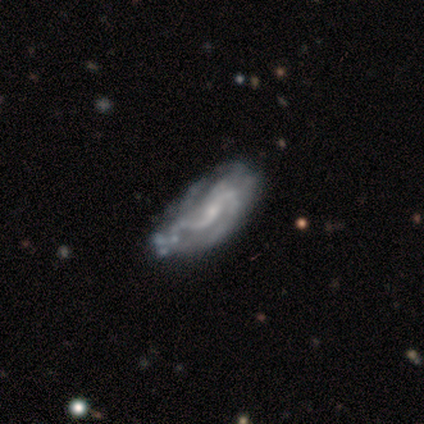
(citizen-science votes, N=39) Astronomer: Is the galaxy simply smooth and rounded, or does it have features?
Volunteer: featured or disk — 90%.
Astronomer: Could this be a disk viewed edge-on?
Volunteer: no — 97%.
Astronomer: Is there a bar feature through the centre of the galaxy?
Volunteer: no — 50% (runner-up: weak, 35%).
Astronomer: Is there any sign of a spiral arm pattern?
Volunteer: yes — 76%.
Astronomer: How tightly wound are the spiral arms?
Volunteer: medium — 46% (runner-up: loose, 38%).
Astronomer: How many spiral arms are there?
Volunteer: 2 — 46% (runner-up: can't tell, 31%).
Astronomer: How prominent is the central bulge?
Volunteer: small — 56%.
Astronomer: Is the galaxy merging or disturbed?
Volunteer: none — 29% (runner-up: major disturbance, 11%).